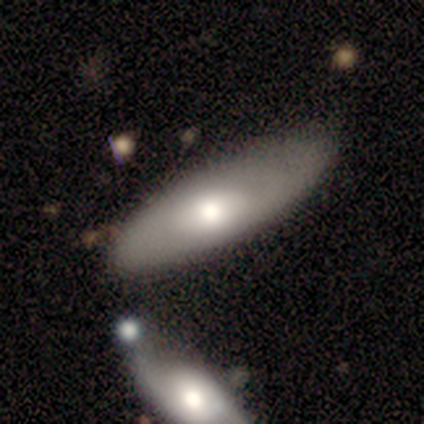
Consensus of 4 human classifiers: Morphology: type=featured or disk (75%); edge-on=no (67%); bar=no (100%); spiral arms=yes (50%, tied with no); winding=loose (100%); arm count=can't tell (100%); bulge=large (50%, tied with moderate); merging=merger (50%).